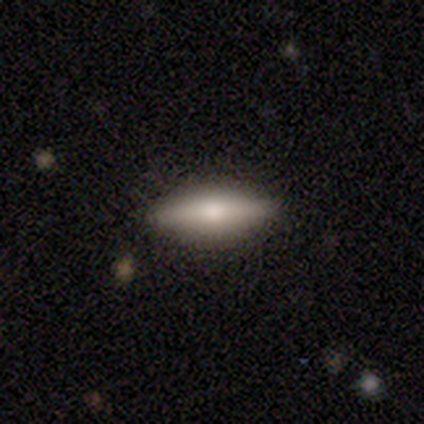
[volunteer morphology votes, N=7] Overall: featured or disk (57%; smooth 29%). Edge-on disk: yes (100%). Edge-on bulge: rounded (75%). Merging: none (100%).